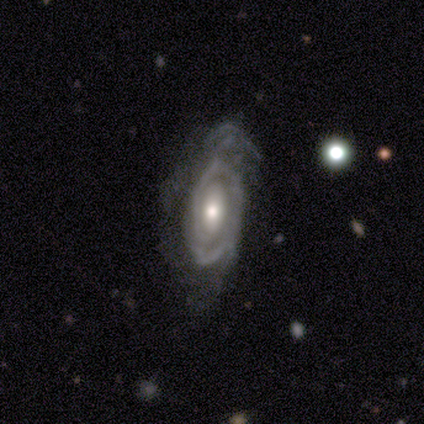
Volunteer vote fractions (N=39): Overall: featured or disk (87%). Edge-on disk: no (91%). Bar: no (74%). Spiral arms: yes (94%). Spiral arm count: 2 (34%, tied with can't tell). Spiral winding: tight (72%). Bulge size: moderate (71%). Merging: none (44%; minor disturbance 28%).